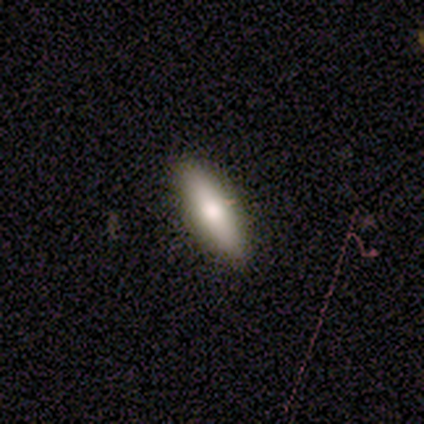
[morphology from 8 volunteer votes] A smooth galaxy with no disk features (50%) that is cigar-shaped (75%).

Vote fractions:
- Smooth or featured? smooth: 50% / featured or disk: 38% / star or artifact: 12%
- How rounded? cigar-shaped: 75% / in between: 25% / round: 0%
- Merging? none: 57% / minor disturbance: 43% / major disturbance: 0% / merger: 0%